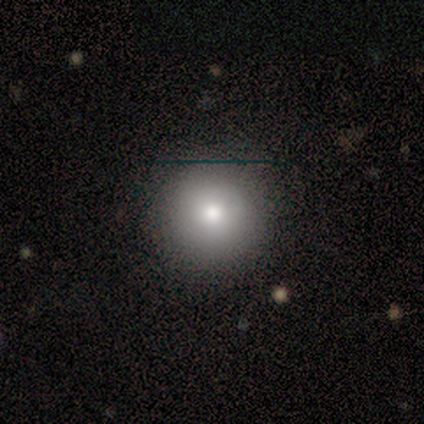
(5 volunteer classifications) This is likely a smooth galaxy (60%). How rounded: clearly round (100%). Merging: clearly none (100%).